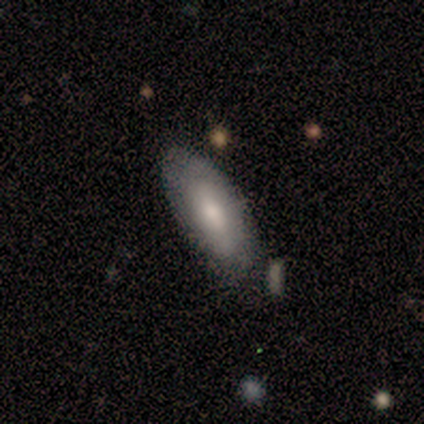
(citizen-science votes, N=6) Smooth or featured? 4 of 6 (67%) said smooth. How rounded? 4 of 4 (100%) said in between. Merging? 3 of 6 (50%, tied with minor disturbance) said none.